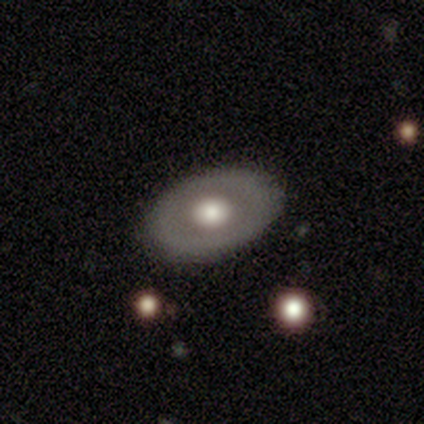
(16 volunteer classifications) A smooth galaxy with no disk features (62%) that is in between round and cigar-shaped (70%).

Vote fractions:
- Smooth or featured? smooth: 62% / featured or disk: 38% / star or artifact: 0%
- How rounded? in between: 70% / round: 30% / cigar-shaped: 0%
- Merging? none: 100% / minor disturbance: 0% / major disturbance: 0% / merger: 0%